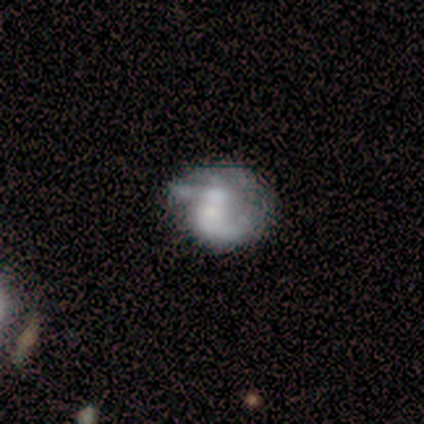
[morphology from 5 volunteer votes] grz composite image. It shows a featured or disk galaxy (80%) with no bar (100%), no spiral arms (75%) and no central bulge (100%). Merging: minor disturbance (40%, tied with major disturbance).